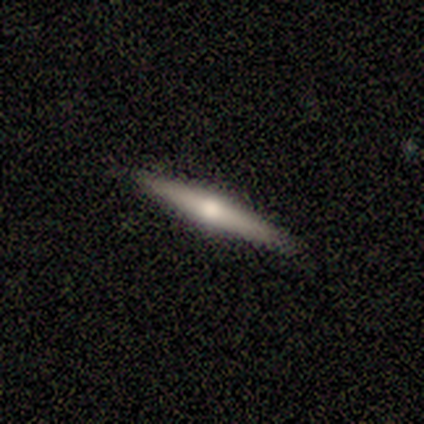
A featured or disk galaxy (60%) viewed edge-on (100%) with a rounded central bulge (100%).

Vote fractions:
- Smooth or featured? featured or disk: 60% / smooth: 20% / star or artifact: 20%
- Edge-on disk? yes: 100% / no: 0%
- Edge-on bulge? rounded: 100% / boxy: 0% / none: 0%
- Merging? none: 100% / minor disturbance: 0% / major disturbance: 0% / merger: 0%